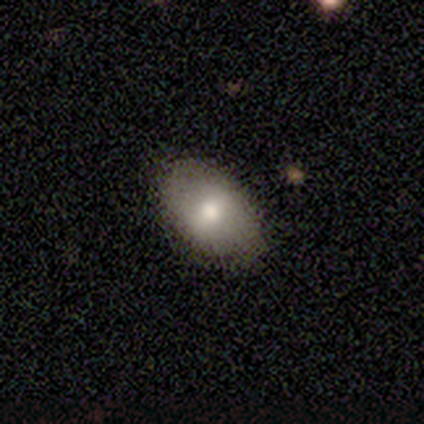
smooth-or-featured: smooth: 75% | star or artifact: 25% | featured or disk: 0%
  how-rounded: in between: 67% | round: 33% | cigar-shaped: 0%
  merging: none: 67% | minor disturbance: 33% | major disturbance: 0% | merger: 0%